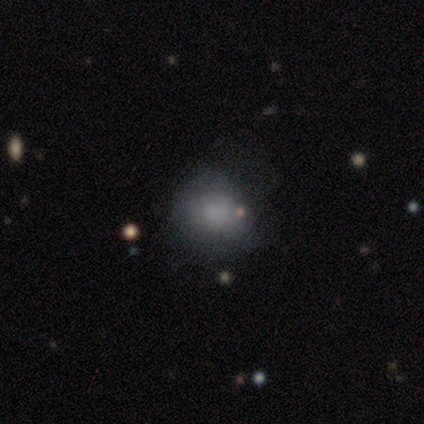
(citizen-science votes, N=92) A smooth galaxy with no disk features (73%) that is round (76%).

Vote fractions:
- Smooth or featured? smooth: 73% / star or artifact: 14% / featured or disk: 13%
- How rounded? round: 76% / in between: 22% / cigar-shaped: 1%
- Merging? none: 62% / minor disturbance: 29% / major disturbance: 8% / merger: 1%